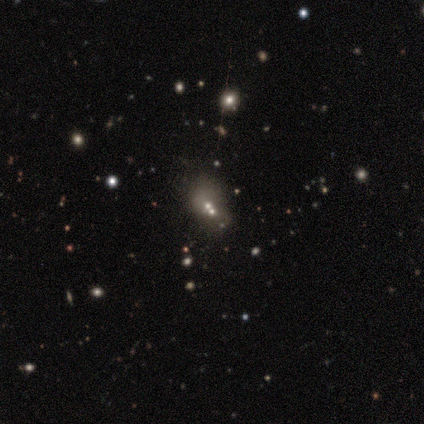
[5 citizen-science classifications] Smooth or featured? 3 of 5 (60%) said star or artifact.